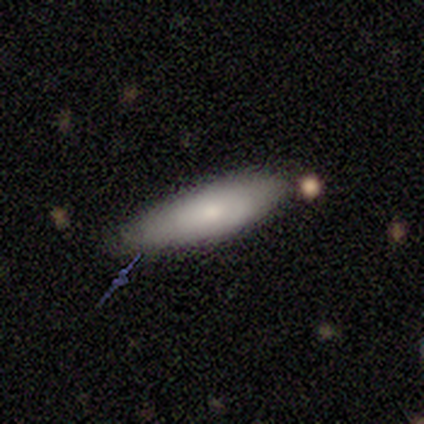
This is likely a smooth galaxy (75%). How rounded: likely in between (67%). Merging: clearly none (100%).